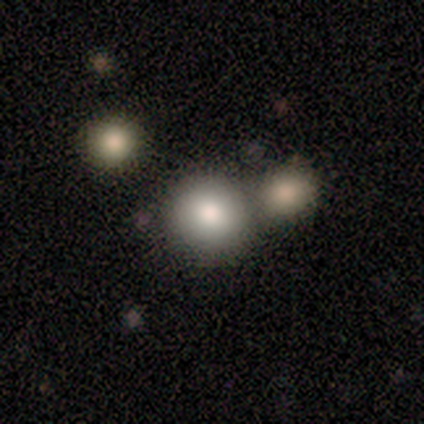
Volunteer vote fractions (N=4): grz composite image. It shows a smooth galaxy with no disk features (75%) that is round (100%). Merging: merger (67%).